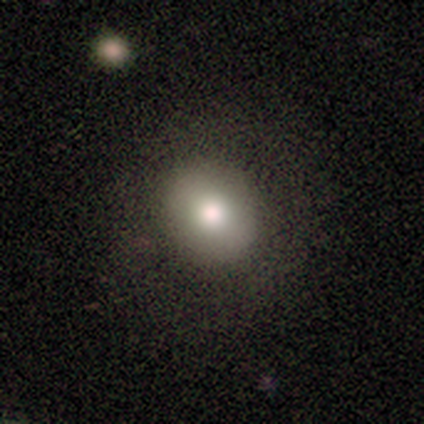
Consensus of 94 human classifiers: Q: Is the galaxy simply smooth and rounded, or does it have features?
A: smooth — 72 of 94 (77%).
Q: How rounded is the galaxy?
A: round — 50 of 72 (69%).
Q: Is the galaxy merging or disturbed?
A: none — 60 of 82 (73%).